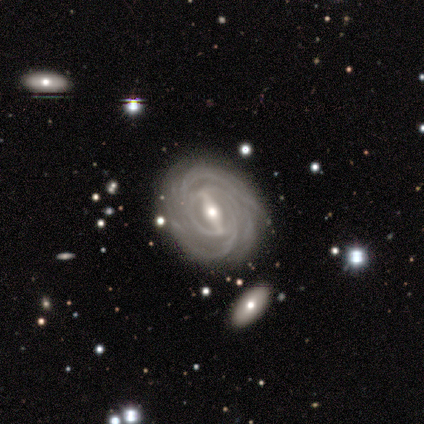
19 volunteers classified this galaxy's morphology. Q: Smooth or featured?
A: featured or disk (89%); runner-up: smooth (5%)
Q: Edge-on disk?
A: no (100%)
Q: Bar?
A: strong (71%); runner-up: weak (29%)
Q: Spiral arms?
A: yes (94%); runner-up: no (6%)
Q: Spiral winding?
A: tight (81%); runner-up: medium (12%)
Q: Spiral arm count?
A: 2 (25%); tied with: 3 (25%); 4 (25%)
Q: Bulge size?
A: moderate (76%); runner-up: small (18%)
Q: Merging?
A: none (83%); runner-up: minor disturbance (17%)